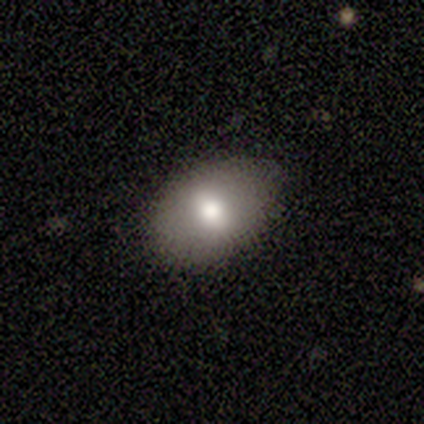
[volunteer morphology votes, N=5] A smooth galaxy with no disk features (100%) that is in between round and cigar-shaped (100%).

Vote fractions:
- Smooth or featured? smooth: 100% / featured or disk: 0% / star or artifact: 0%
- How rounded? in between: 100% / round: 0% / cigar-shaped: 0%
- Merging? none: 100% / minor disturbance: 0% / major disturbance: 0% / merger: 0%